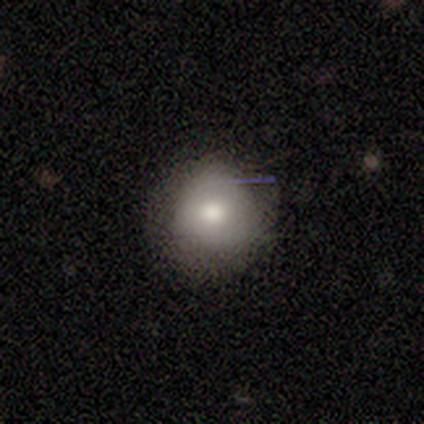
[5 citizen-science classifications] smooth_or_featured: smooth (p=0.60) [alt: featured or disk p=0.20]
how_rounded: round (p=0.67) [alt: in between p=0.33]
merging: none (p=1.00)